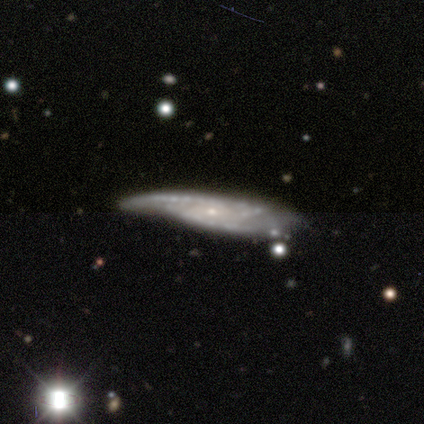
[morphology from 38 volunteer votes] Smooth or featured? 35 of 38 (92%) said featured or disk. Edge-on disk? 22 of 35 (63%) said no. Bar? 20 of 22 (91%) said no. Spiral arms? 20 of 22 (91%) said yes. Spiral winding? 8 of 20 (40%) said medium. Spiral arm count? 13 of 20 (65%) said 2. Bulge size? 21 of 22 (95%) said small. Merging? 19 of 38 (50%) said none.